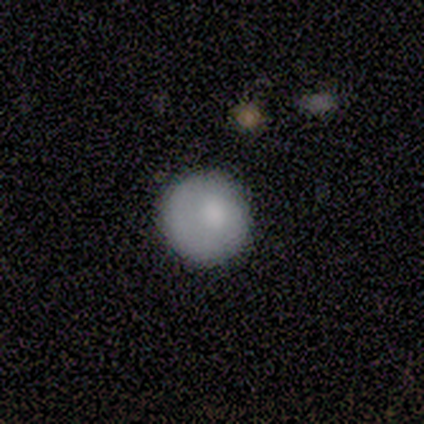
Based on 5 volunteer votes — smooth 100%, featured or disk 0%, star or artifact 0%. Down the decision tree: how rounded — round (100%); merging — none (100%).